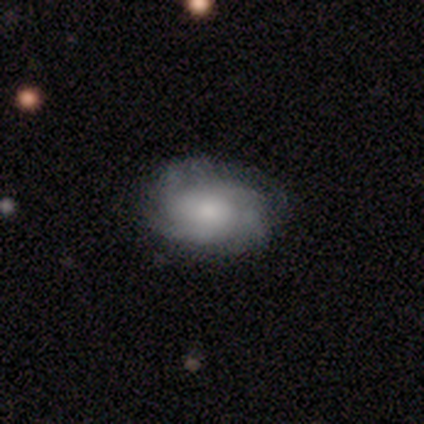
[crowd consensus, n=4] smooth-or-featured: smooth: 100% | featured or disk: 0% | star or artifact: 0%
  how-rounded: in between: 75% | round: 25% | cigar-shaped: 0%
  merging: none: 75% | minor disturbance: 25% | major disturbance: 0% | merger: 0%